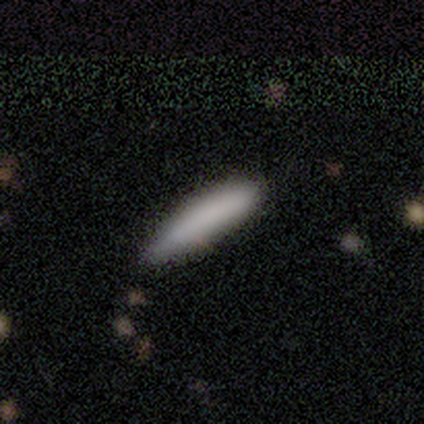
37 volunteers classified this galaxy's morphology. Volunteers were most divided on "merging": none: 35%, minor disturbance: 19%, major disturbance: 3%, merger: 3%. More confident: how rounded — cigar-shaped (93%); smooth or featured — smooth (81%).